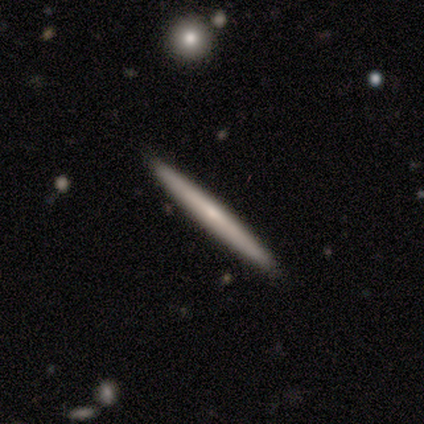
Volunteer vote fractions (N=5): smooth-or-featured: smooth: 60% | featured or disk: 40% | star or artifact: 0%
  how-rounded: cigar-shaped: 100% | round: 0% | in between: 0%
  merging: none: 100% | minor disturbance: 0% | major disturbance: 0% | merger: 0%